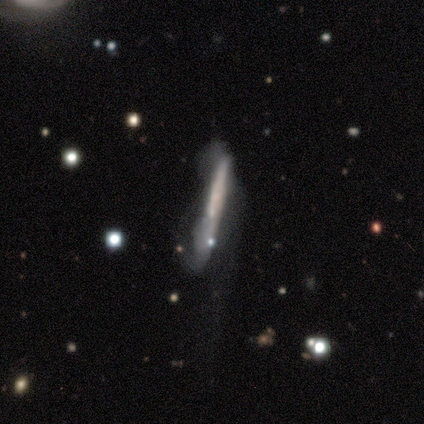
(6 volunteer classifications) smooth-or-featured: featured or disk: 67% | smooth: 33% | star or artifact: 0%
  disk-edge-on: yes: 100% | no: 0%
    edge-on-bulge: none: 75% | boxy: 25% | rounded: 0%
  merging: none: 50% (tied) | major disturbance: 50% (tied) | minor disturbance: 0% | merger: 0%